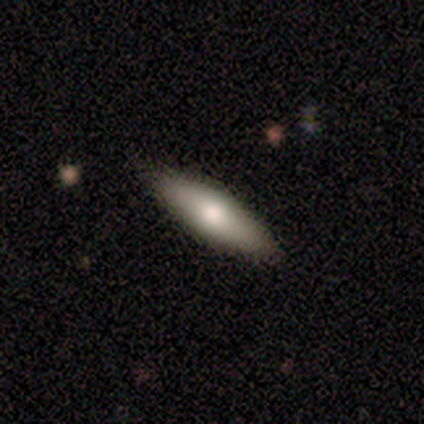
smooth 60%, featured or disk 20%, star or artifact 20%. Down the decision tree: how rounded — in between (67%); merging — none (100%).